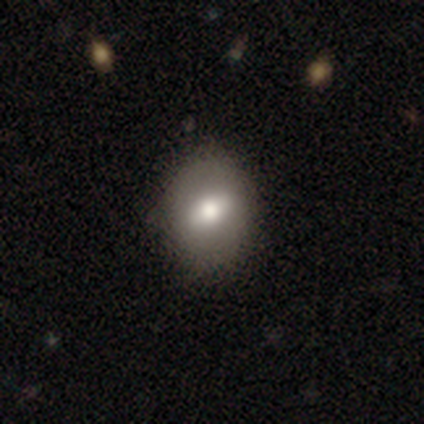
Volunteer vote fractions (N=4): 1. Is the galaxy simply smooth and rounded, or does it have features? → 75% smooth, 25% star or artifact, 0% featured or disk.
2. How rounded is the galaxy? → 67% in between, 33% round, 0% cigar-shaped.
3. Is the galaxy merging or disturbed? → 100% none, 0% minor disturbance, 0% major disturbance, 0% merger.